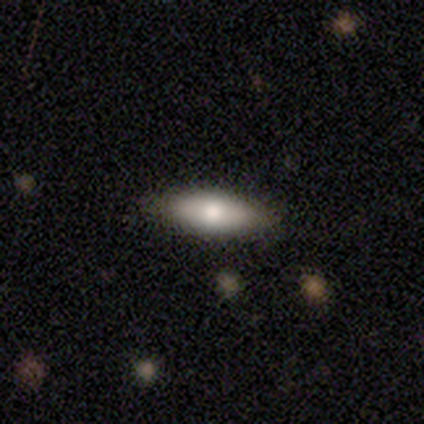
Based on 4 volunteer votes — smooth-or-featured: smooth: 100% | featured or disk: 0% | star or artifact: 0%
  how-rounded: in between: 75% | cigar-shaped: 25% | round: 0%
  merging: none: 50% | minor disturbance: 25% | major disturbance: 25% | merger: 0%